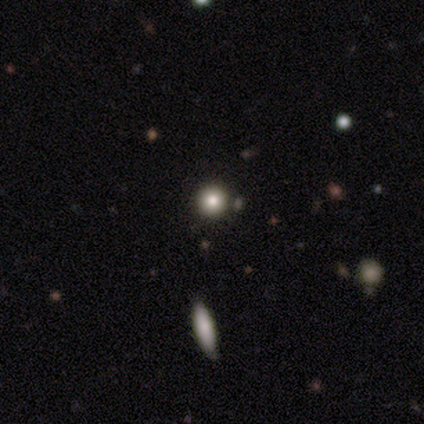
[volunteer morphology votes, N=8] smooth_or_featured: smooth (p=0.62) [alt: star or artifact p=0.25]
how_rounded: round (p=1.00)
merging: none (p=0.83) [alt: minor disturbance p=0.17]